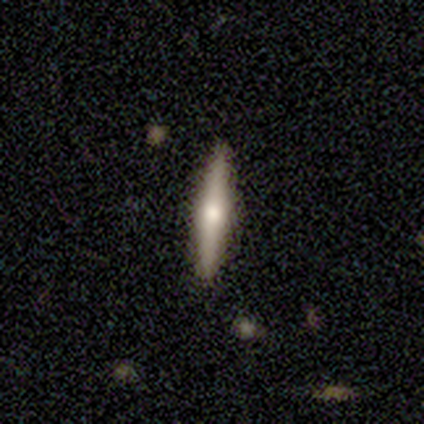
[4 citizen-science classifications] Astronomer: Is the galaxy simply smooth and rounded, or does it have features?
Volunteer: smooth — 75%.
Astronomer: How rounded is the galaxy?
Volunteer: cigar-shaped — 100%.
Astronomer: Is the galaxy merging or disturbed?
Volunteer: none — 100%.